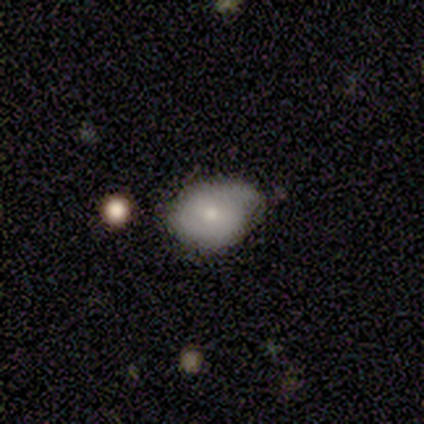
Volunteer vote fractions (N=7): This is likely a smooth galaxy (71%). How rounded: clearly in between (80%). Merging: marginally none (43%, tied with minor disturbance).